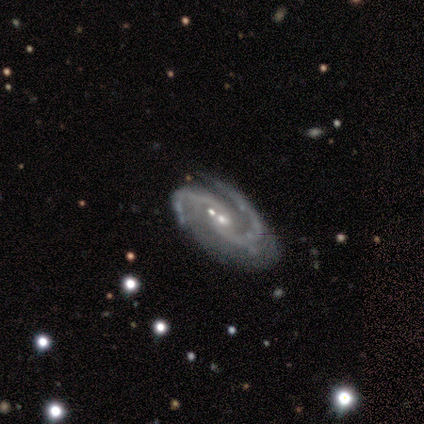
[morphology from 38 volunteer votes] type=featured or disk (89%); edge-on=no (91%); bar=no (68%); spiral arms=yes (100%); winding=medium (61%); arm count=2 (100%); bulge=small (68%); merging=none (49%).